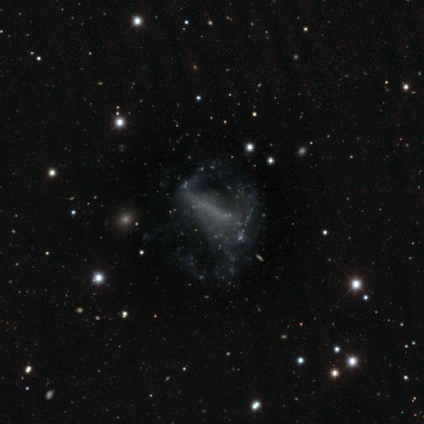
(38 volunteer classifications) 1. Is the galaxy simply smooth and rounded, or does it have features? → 66% featured or disk, 29% star or artifact, 5% smooth.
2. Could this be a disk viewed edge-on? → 92% no, 8% yes.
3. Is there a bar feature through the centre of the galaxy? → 52% no, 39% strong, 9% weak.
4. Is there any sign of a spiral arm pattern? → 70% no, 30% yes.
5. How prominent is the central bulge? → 87% none, 9% large, 4% small, 0% dominant, 0% moderate.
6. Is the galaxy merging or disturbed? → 56% major disturbance, 22% none, 15% minor disturbance, 7% merger.